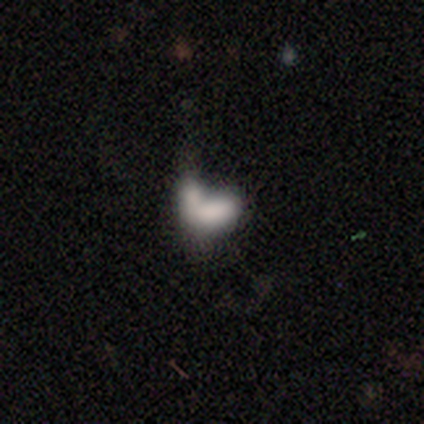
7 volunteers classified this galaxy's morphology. type=smooth (100%); roundness=in between (86%); merging=major disturbance (43%, tied with merger).